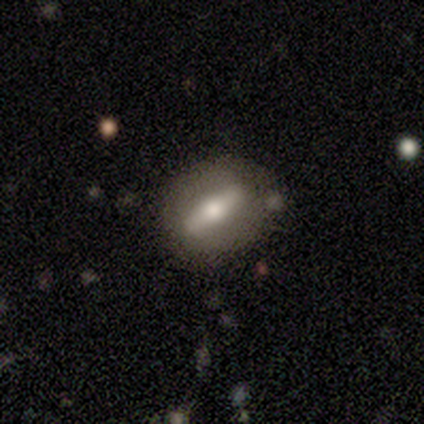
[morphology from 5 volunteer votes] Volunteers were most divided on "bar" (2-way tie): strong: 50%, no: 50%, weak: 0%. More confident: spiral arms — no (100%); bulge size — moderate (100%); merging — none (75%); edge-on disk — no (67%); smooth or featured — featured or disk (60%).